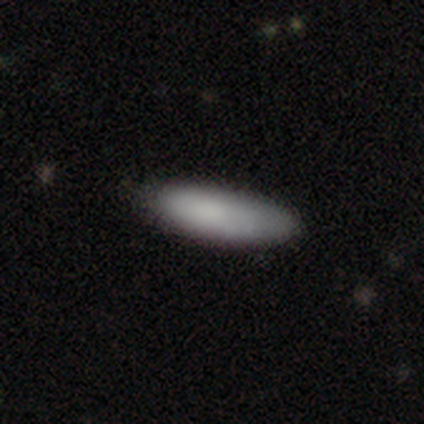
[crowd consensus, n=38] Overall: smooth (89%). How rounded: in between (59%; cigar-shaped 41%). Merging: none (47%; minor disturbance 16%).